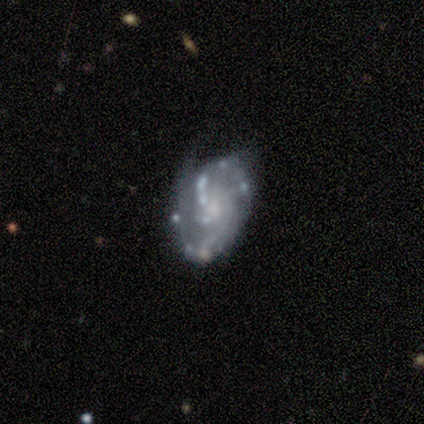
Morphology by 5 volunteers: Smooth or featured?
  - featured or disk: 80% *
  - smooth: 20%
  - star or artifact: 0%
Edge-on disk?
  - no: 100% *
  - yes: 0%
Bar?
  - no: 100% *
  - strong: 0%
  - weak: 0%
Spiral arms?
  - yes: 75% *
  - no: 25%
Spiral winding?
  - tight: 33% * (tied)
  - medium: 33% * (tied)
  - loose: 33% * (tied)
Spiral arm count?
  - 2: 67% *
  - can't tell: 33%
  - 1: 0%
  - 3: 0%
  - 4: 0%
  - more than 4: 0%
Bulge size?
  - dominant: 25% * (tied)
  - moderate: 25% * (tied)
  - small: 25% * (tied)
  - none: 25% * (tied)
  - large: 0%
Merging?
  - none: 80% *
  - minor disturbance: 20%
  - major disturbance: 0%
  - merger: 0%